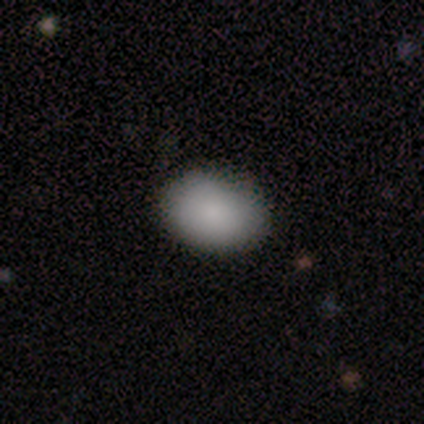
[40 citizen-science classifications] A smooth galaxy with no disk features (88%) that is in between round and cigar-shaped (86%). Merging: none (77%).